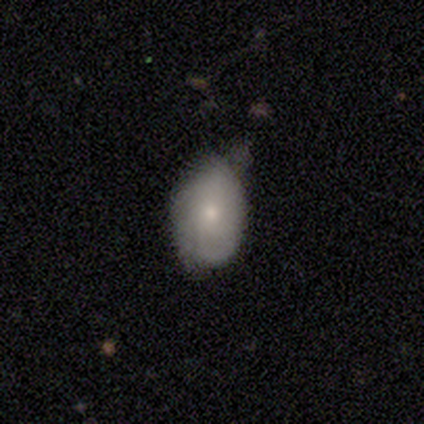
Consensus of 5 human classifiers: Volunteers were most divided on "merging" (2-way tie): none: 40%, minor disturbance: 40%, major disturbance: 20%, merger: 0%. More confident: how rounded — in between (100%); smooth or featured — smooth (60%).